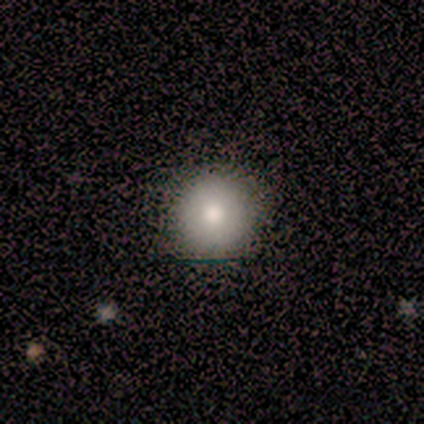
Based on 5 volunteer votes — This appears to be a smooth galaxy with no disk features (80%) that is round (100%). Merging: none (100%).